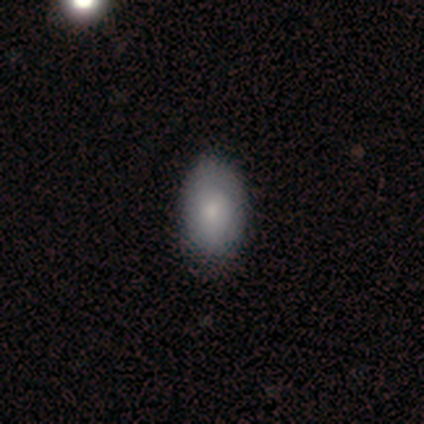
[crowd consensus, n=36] Q: Smooth or featured?
A: smooth (92%); runner-up: featured or disk (8%)
Q: How rounded?
A: in between (97%); runner-up: round (3%)
Q: Merging?
A: none (69%); runner-up: minor disturbance (11%)